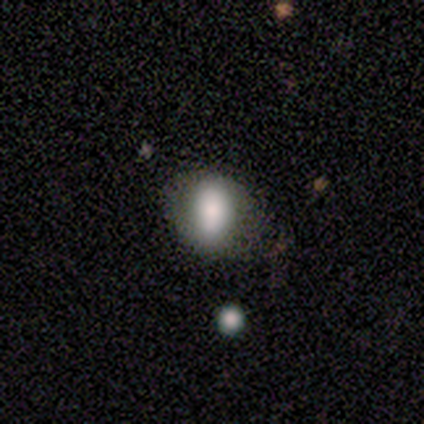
Smooth or featured: smooth — 80% (star or artifact — 20%)
How rounded: round — 50% (tied with in between — 50%)
Merging: none — 75% (minor disturbance — 25%)